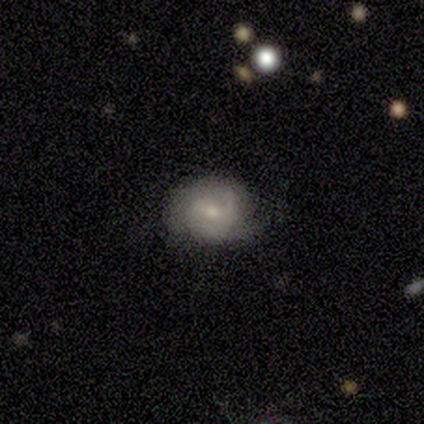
A featured or disk galaxy (60%) with a weak bar (100%), 2 (33%, tied with 3 and can't tell) tight (67%) spiral arms (100%) and a moderate central bulge (100%). Merging: none (100%).